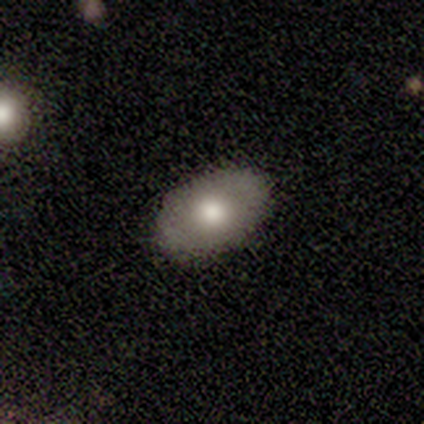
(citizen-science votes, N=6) Morphology: type=smooth (100%); roundness=in between (100%); merging=none (83%).